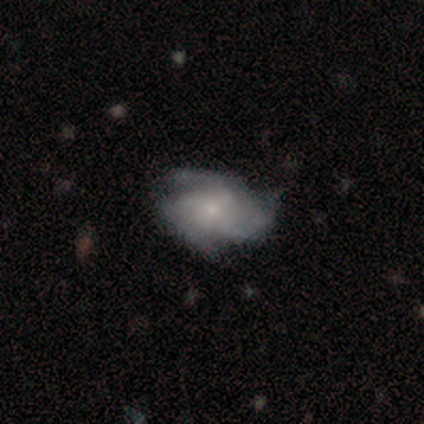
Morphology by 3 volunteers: Q: Smooth or featured?
A: featured or disk (67%); runner-up: star or artifact (33%)
Q: Edge-on disk?
A: no (100%)
Q: Bar?
A: no (100%)
Q: Spiral arms?
A: yes (100%)
Q: Spiral winding?
A: medium (50%); tied with: loose (50%)
Q: Spiral arm count?
A: 3 (100%)
Q: Bulge size?
A: small (100%)
Q: Merging?
A: none (100%)